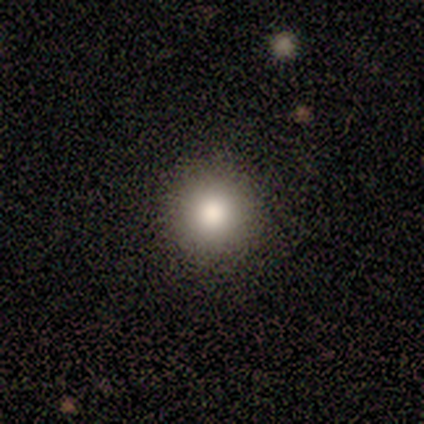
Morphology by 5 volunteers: Smooth or featured?
  - smooth: 80% *
  - star or artifact: 20%
  - featured or disk: 0%
How rounded?
  - round: 75% *
  - in between: 25%
  - cigar-shaped: 0%
Merging?
  - none: 100% *
  - minor disturbance: 0%
  - major disturbance: 0%
  - merger: 0%